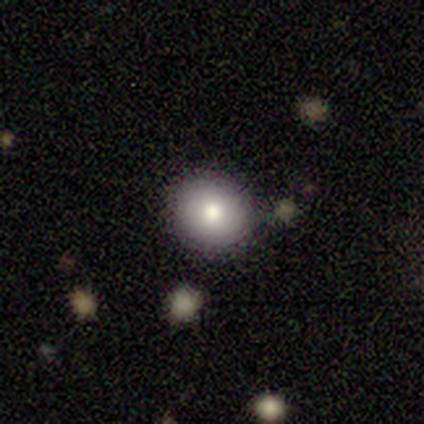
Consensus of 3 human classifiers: Smooth or featured? 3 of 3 (100%) said smooth. How rounded? 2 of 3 (67%) said in between. Merging? 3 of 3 (100%) said none.